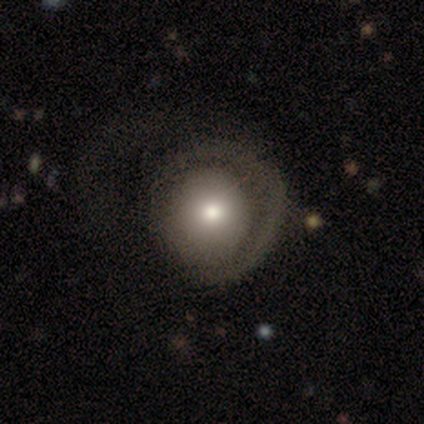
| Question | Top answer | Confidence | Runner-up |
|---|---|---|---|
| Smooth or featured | smooth | 80% | featured or disk (20%) |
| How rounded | round | 75% | in between (25%) |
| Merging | none | 80% | major disturbance (20%) |